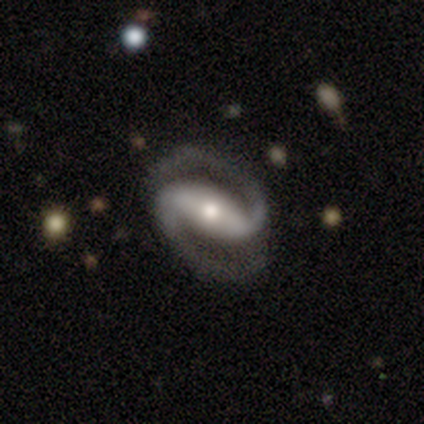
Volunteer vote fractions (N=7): A featured or disk galaxy (100%) with a strong bar (100%), 2 (100%) tight (43%, tied with medium) spiral arms (100%) and a moderate central bulge (71%).

Vote fractions:
- Smooth or featured? featured or disk: 100% / smooth: 0% / star or artifact: 0%
- Edge-on disk? no: 100% / yes: 0%
- Bar? strong: 100% / weak: 0% / no: 0%
- Spiral arms? yes: 100% / no: 0%
- Spiral winding? tight: 43% (tied) / medium: 43% (tied) / loose: 14%
- Spiral arm count? 2: 100% / 1: 0% / 3: 0% / 4: 0% / more than 4: 0% / can't tell: 0%
- Bulge size? moderate: 71% / small: 29% / dominant: 0% / large: 0% / none: 0%
- Merging? none: 86% / minor disturbance: 14% / major disturbance: 0% / merger: 0%